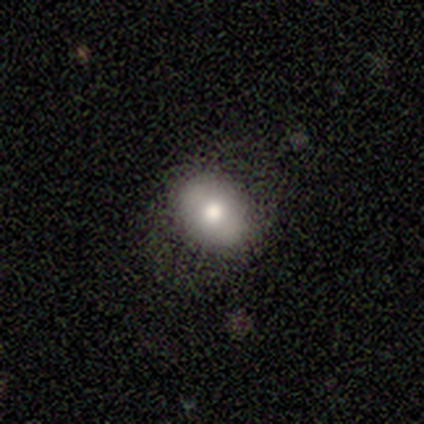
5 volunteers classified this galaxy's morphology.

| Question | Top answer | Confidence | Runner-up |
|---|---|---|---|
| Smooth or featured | smooth | 80% | featured or disk (20%) |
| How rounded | round | 50% | tied: in between (50%) |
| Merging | none | 100% | — |